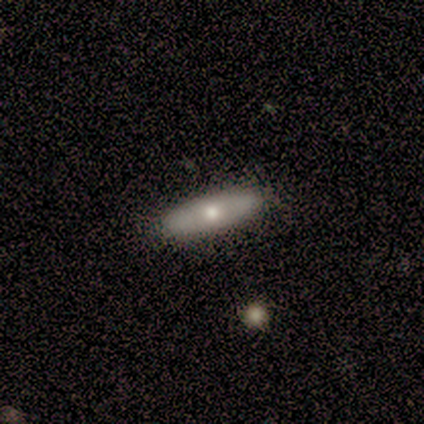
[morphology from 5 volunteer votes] Smooth or featured?
  - featured or disk: 80% *
  - smooth: 20%
  - star or artifact: 0%
Edge-on disk?
  - no: 75% *
  - yes: 25%
Bar?
  - no: 67% *
  - weak: 33%
  - strong: 0%
Spiral arms?
  - no: 100% *
  - yes: 0%
Bulge size?
  - moderate: 67% *
  - none: 33%
  - dominant: 0%
  - large: 0%
  - small: 0%
Merging?
  - none: 100% *
  - minor disturbance: 0%
  - major disturbance: 0%
  - merger: 0%